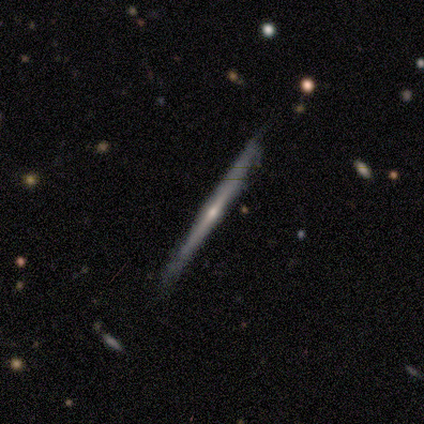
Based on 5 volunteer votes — Smooth or featured? 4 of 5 (80%) said featured or disk. Edge-on disk? 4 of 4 (100%) said yes. Edge-on bulge? 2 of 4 (50%, tied with rounded) said none. Merging? 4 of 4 (100%) said none.